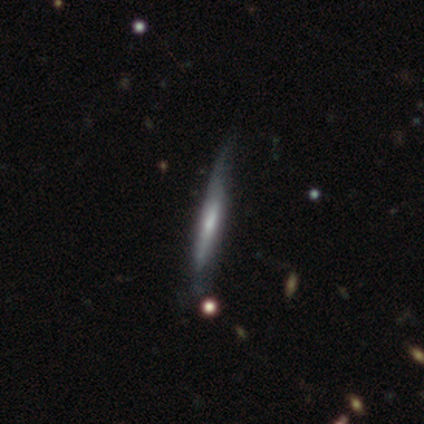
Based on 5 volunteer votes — Smooth or featured: featured or disk — 60% (smooth — 40%)
Edge-on disk: yes — 67% (no — 33%)
Edge-on bulge: none — 100%
Merging: none — 40% (tied with minor disturbance — 40%)